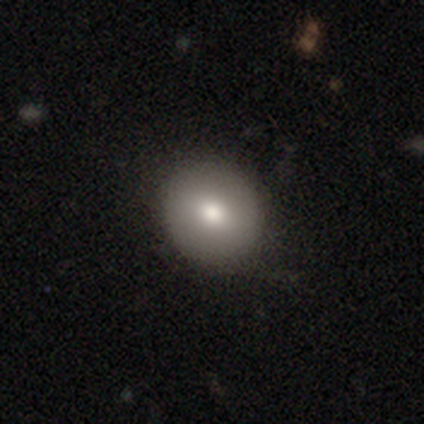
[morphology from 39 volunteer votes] A smooth galaxy with no disk features (69%) that is round (81%).

Vote fractions:
- Smooth or featured? smooth: 69% / featured or disk: 28% / star or artifact: 3%
- How rounded? round: 81% / in between: 19% / cigar-shaped: 0%
- Merging? none: 82% / minor disturbance: 13% / major disturbance: 3% / merger: 3%